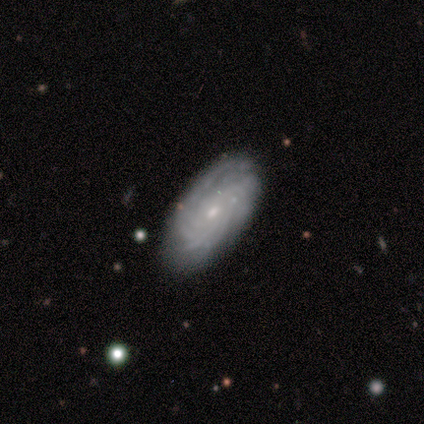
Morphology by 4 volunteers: Smooth or featured? featured or disk (100%)
Edge-on disk? no (100%)
Bar? weak (75%)
Spiral arms? yes (100%)
Spiral winding? tight (75%)
Spiral arm count? can't tell (50%)
Bulge size? small (75%)
Merging? none (75%)